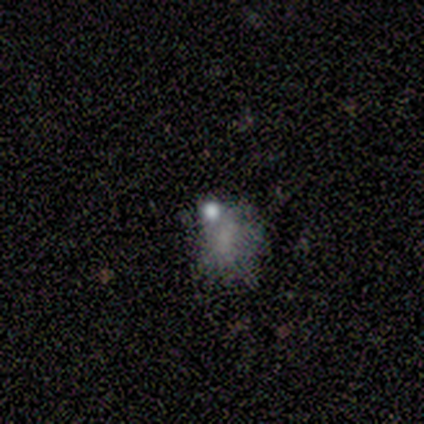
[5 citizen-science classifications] smooth-or-featured: smooth: 80% | featured or disk: 20% | star or artifact: 0%
  how-rounded: round: 75% | in between: 25% | cigar-shaped: 0%
  merging: minor disturbance: 60% | none: 40% | major disturbance: 0% | merger: 0%